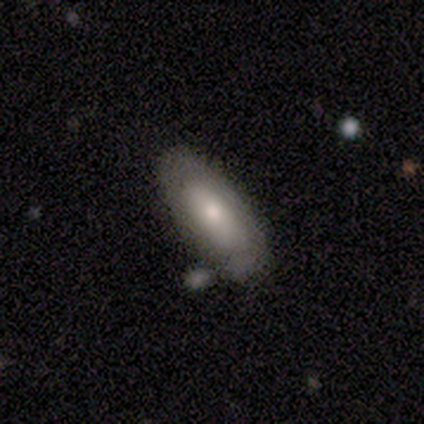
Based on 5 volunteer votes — smooth-or-featured: featured or disk: 80% | smooth: 20% | star or artifact: 0%
  disk-edge-on: no: 100% | yes: 0%
    bar: no: 100% | strong: 0% | weak: 0%
    has-spiral-arms: no: 75% | yes: 25%
    bulge-size: small: 75% | large: 25% | dominant: 0% | moderate: 0% | none: 0%
  merging: minor disturbance: 40% (tied) | merger: 40% (tied) | none: 20% | major disturbance: 0%